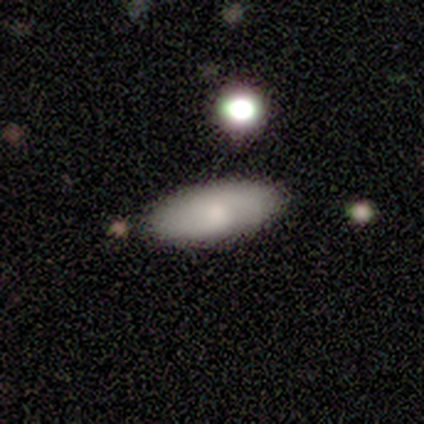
This is likely a smooth galaxy (75%). How rounded: clearly in between (100%). Merging: likely none (75%).